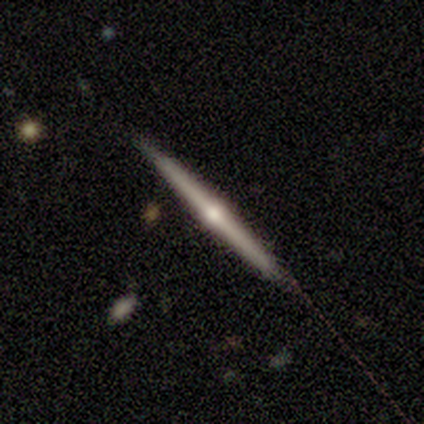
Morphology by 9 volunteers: type=featured or disk (56%); edge-on=yes (100%); edge-on bulge=rounded (100%); merging=none (78%).